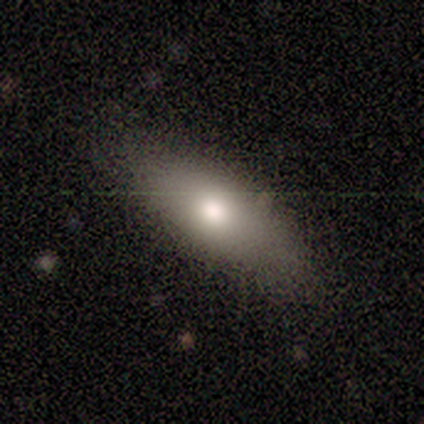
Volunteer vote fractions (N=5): smooth 60%, featured or disk 40%, star or artifact 0%. Down the decision tree: how rounded — in between (100%); merging — none (80%).